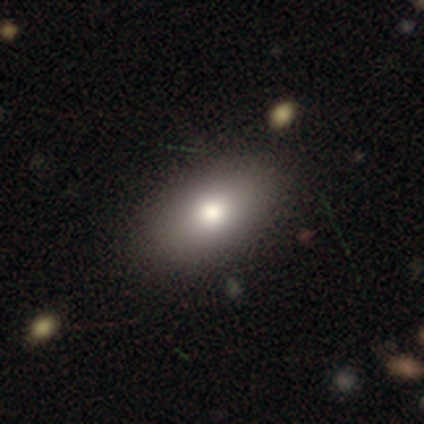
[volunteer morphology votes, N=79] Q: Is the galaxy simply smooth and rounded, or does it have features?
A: smooth — 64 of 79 (81%).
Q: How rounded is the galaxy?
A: in between — 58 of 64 (91%).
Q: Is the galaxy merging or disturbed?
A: none — 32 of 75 (43%).